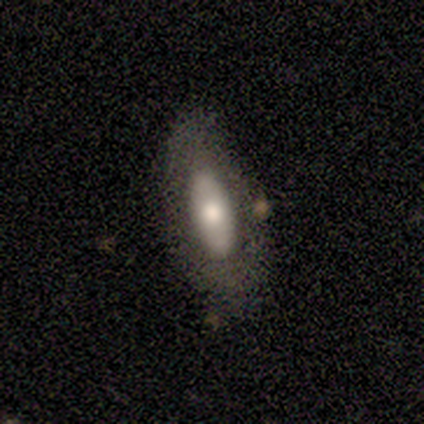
A featured or disk galaxy (60%) with no bar (100%), no spiral arms (100%) and a large central bulge (50%, tied with small). Merging: none (80%).